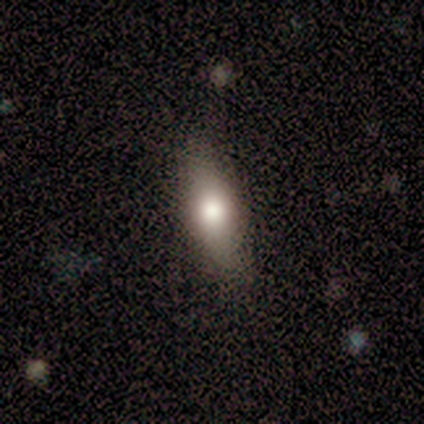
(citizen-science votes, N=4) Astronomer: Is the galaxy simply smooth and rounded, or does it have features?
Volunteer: smooth — 50%.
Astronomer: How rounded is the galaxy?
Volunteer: in between — 50%, tied with cigar-shaped at 50%.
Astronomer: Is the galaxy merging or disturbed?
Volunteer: none — 67%.